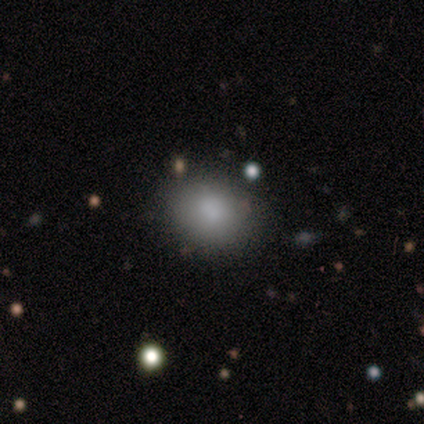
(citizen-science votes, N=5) Smooth or featured?
  - smooth: 100% *
  - featured or disk: 0%
  - star or artifact: 0%
How rounded?
  - in between: 60% *
  - round: 40%
  - cigar-shaped: 0%
Merging?
  - none: 100% *
  - minor disturbance: 0%
  - major disturbance: 0%
  - merger: 0%